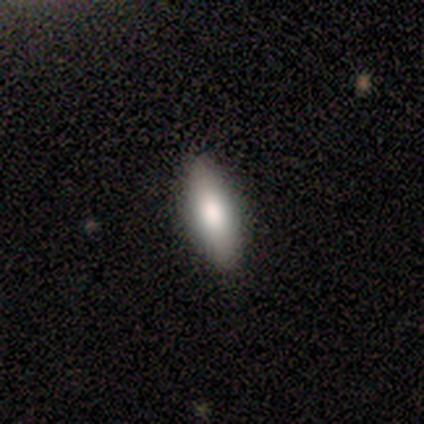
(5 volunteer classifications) Volunteers were most divided on "how rounded": in between: 75%, cigar-shaped: 25%, round: 0%. More confident: merging — none (100%); smooth or featured — smooth (80%).